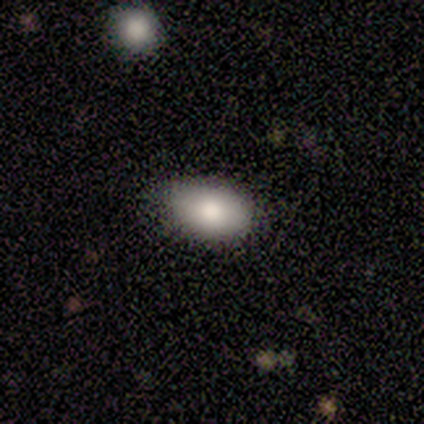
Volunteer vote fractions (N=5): This is clearly a smooth galaxy (100%). How rounded: clearly in between (100%). Merging: clearly none (80%).